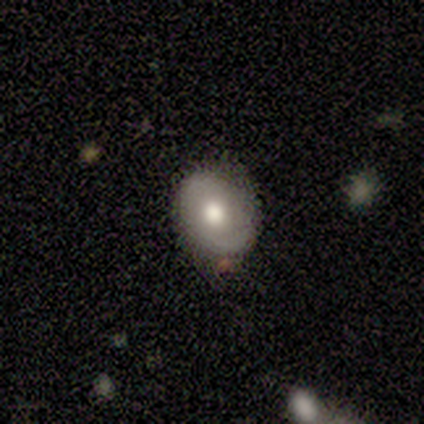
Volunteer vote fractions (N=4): Smooth or featured? 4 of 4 (100%) said smooth. How rounded? 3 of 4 (75%) said in between. Merging? 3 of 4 (75%) said none.